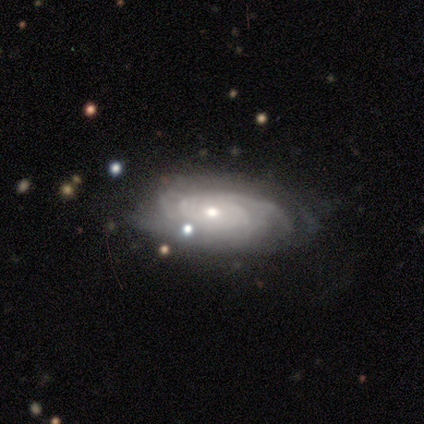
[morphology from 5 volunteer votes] Volunteers were most divided on "bulge size" (2-way tie): moderate: 50%, small: 50%, dominant: 0%, large: 0%, none: 0%. More confident: edge-on disk — no (100%); bar — no (100%); spiral arms — yes (100%); merging — none (100%); smooth or featured — featured or disk (80%); spiral winding — tight (50%); spiral arm count — 4 (50%).